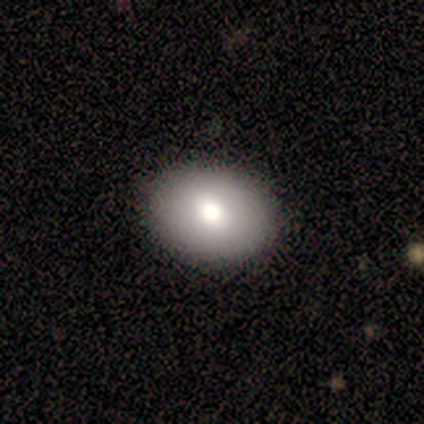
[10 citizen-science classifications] This is likely a smooth galaxy (70%). How rounded: likely in between (71%). Merging: clearly none (100%).